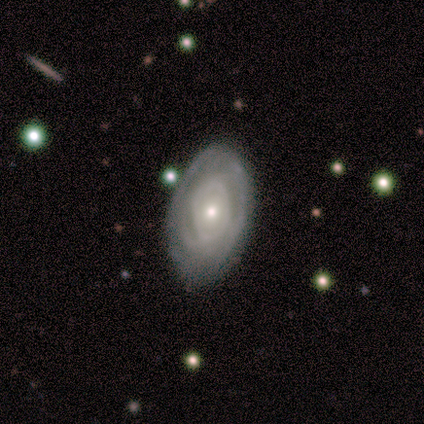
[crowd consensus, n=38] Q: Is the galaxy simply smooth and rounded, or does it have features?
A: featured or disk — 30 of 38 (79%).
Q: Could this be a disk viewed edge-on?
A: no — 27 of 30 (90%).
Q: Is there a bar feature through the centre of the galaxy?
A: no — 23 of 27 (85%).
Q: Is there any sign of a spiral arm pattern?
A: yes — 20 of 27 (74%).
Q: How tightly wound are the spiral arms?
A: tight — 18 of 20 (90%).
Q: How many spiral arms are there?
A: can't tell — 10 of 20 (50%).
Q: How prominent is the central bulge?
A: small — 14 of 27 (52%).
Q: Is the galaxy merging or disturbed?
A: none — 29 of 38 (76%).